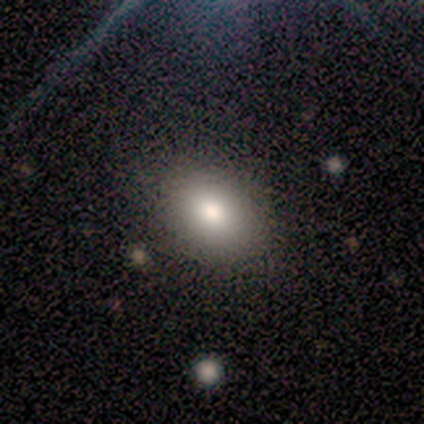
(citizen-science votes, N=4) A smooth galaxy with no disk features (100%) that is round (75%).

Vote fractions:
- Smooth or featured? smooth: 100% / featured or disk: 0% / star or artifact: 0%
- How rounded? round: 75% / in between: 25% / cigar-shaped: 0%
- Merging? none: 75% / minor disturbance: 25% / major disturbance: 0% / merger: 0%